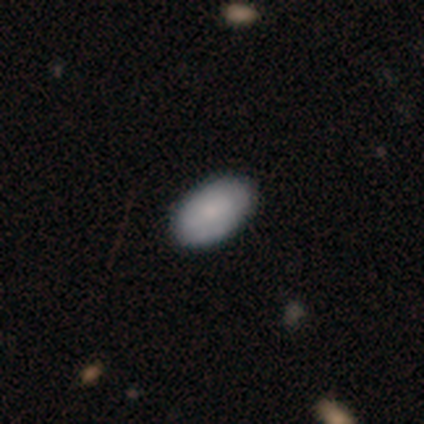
Morphology: type=smooth (59%); roundness=in between (77%); merging=none (83%).